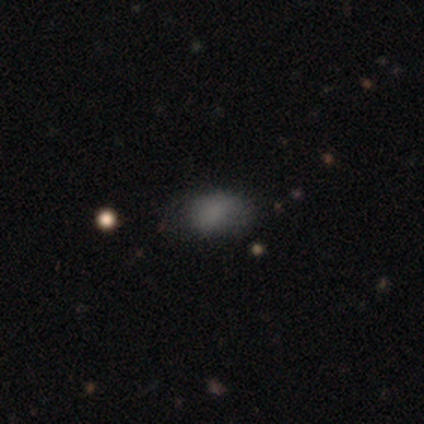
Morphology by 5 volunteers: Smooth or featured? smooth (80%)
How rounded? in between (100%)
Merging? none (100%)